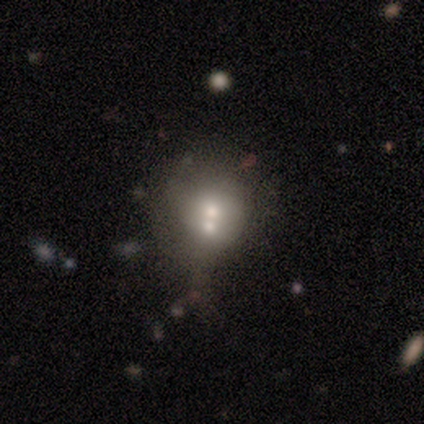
Smooth or featured: smooth — 60% (featured or disk — 20%)
How rounded: round — 100%
Merging: merger — 75% (none — 25%)